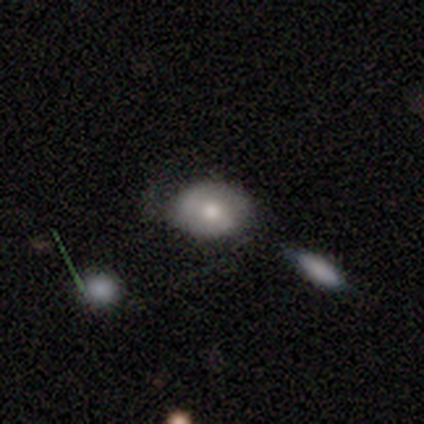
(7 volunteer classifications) Morphology: type=smooth (71%); roundness=in between (80%); merging=none (57%).